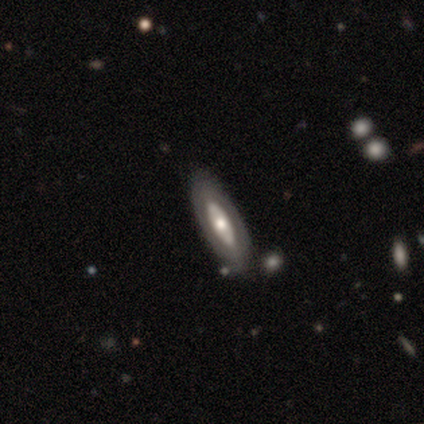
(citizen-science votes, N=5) smooth_or_featured: featured or disk (p=0.60) [alt: smooth p=0.40]
disk_edge_on: yes (p=1.00)
edge_on_bulge: rounded (p=1.00)
merging: none (p=0.80) [alt: merger p=0.20]